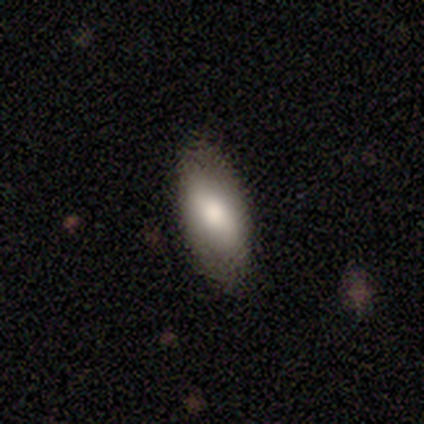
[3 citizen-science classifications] Q: Smooth or featured?
A: smooth (100%)
Q: How rounded?
A: in between (67%); runner-up: cigar-shaped (33%)
Q: Merging?
A: none (100%)